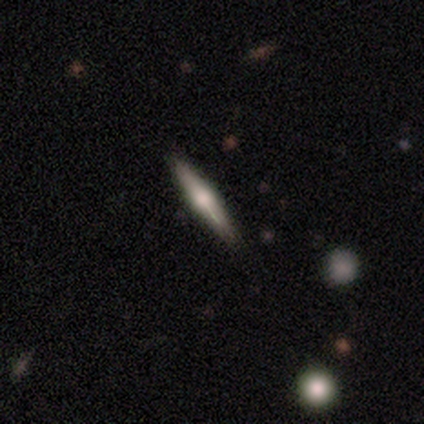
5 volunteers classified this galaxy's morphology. Overall: smooth (60%; featured or disk 40%). How rounded: cigar-shaped (100%). Merging: none (100%).